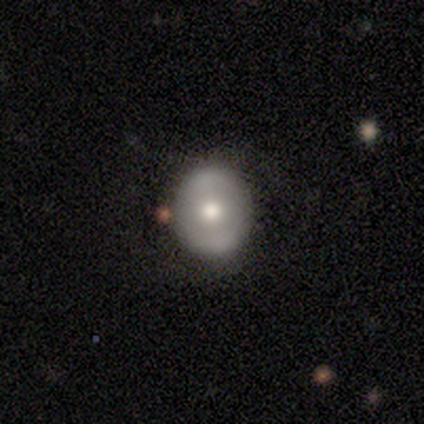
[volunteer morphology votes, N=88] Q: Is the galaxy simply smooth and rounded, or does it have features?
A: smooth — 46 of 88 (52%).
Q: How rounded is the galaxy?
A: round — 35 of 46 (76%).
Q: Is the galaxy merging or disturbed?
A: none — 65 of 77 (84%).